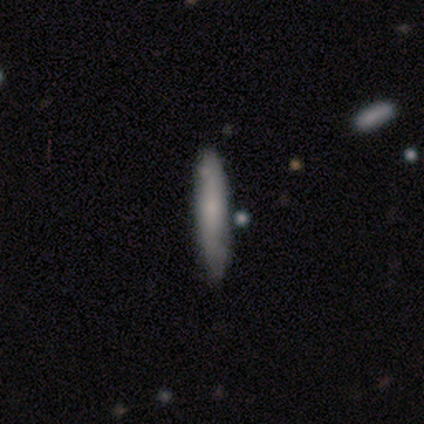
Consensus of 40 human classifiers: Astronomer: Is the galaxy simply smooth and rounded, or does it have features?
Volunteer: smooth — 75%.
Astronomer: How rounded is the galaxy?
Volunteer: cigar-shaped — 90%.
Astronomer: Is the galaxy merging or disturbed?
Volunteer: none — 63%.